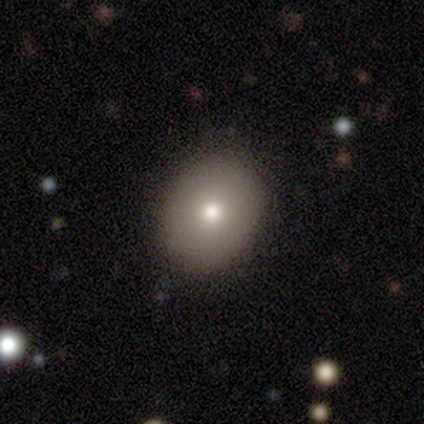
Volunteers were most divided on "how rounded": in between: 83%, round: 17%, cigar-shaped: 0%. More confident: smooth or featured — smooth (100%); merging — none (83%).